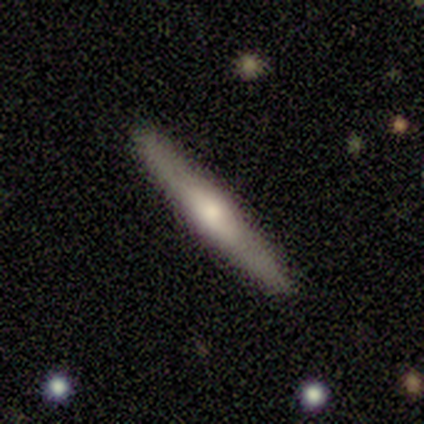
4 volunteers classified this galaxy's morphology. Volunteers were most divided on "smooth or featured" (2-way tie): smooth: 50%, featured or disk: 50%, star or artifact: 0%. More confident: how rounded — cigar-shaped (100%); merging — none (100%).